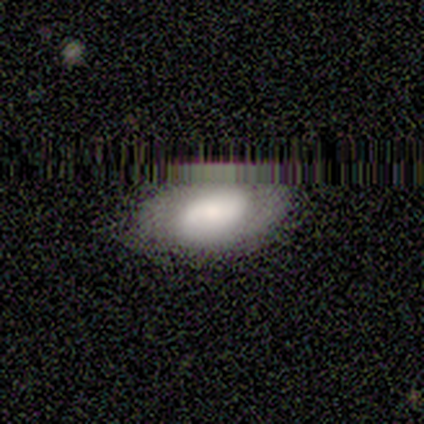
Smooth or featured? smooth (80%)
How rounded? in between (100%)
Merging? none (100%)